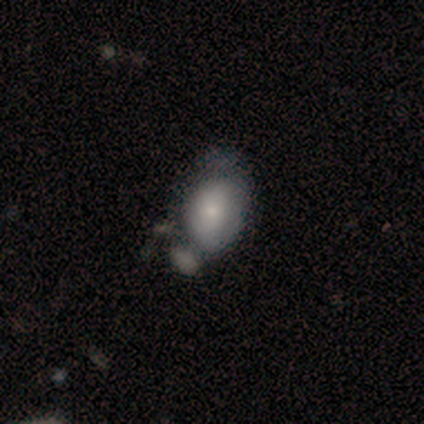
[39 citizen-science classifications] A smooth galaxy with no disk features (72%) that is in between round and cigar-shaped (75%).

Vote fractions:
- Smooth or featured? smooth: 72% / featured or disk: 23% / star or artifact: 5%
- How rounded? in between: 75% / round: 25% / cigar-shaped: 0%
- Merging? minor disturbance: 38% / none: 22% / merger: 19% / major disturbance: 8%